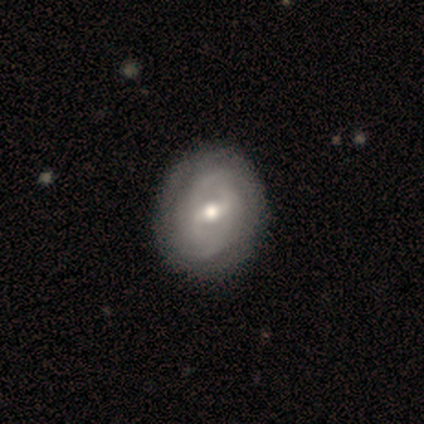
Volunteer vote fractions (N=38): Smooth or featured? featured or disk (87%)
Edge-on disk? no (100%)
Bar? weak (64%)
Spiral arms? yes (91%)
Spiral winding? tight (50%)
Spiral arm count? 2 (50%)
Bulge size? moderate (82%)
Merging? none (58%)